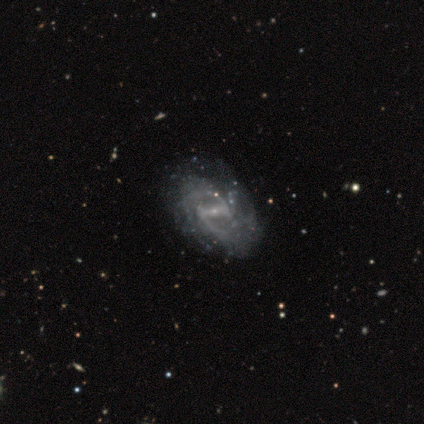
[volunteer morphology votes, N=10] Smooth or featured? 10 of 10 (100%) said featured or disk. Edge-on disk? 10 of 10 (100%) said no. Bar? 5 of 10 (50%) said weak. Spiral arms? 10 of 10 (100%) said yes. Spiral winding? 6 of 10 (60%) said medium. Spiral arm count? 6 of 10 (60%) said 2. Bulge size? 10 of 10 (100%) said small. Merging? 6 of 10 (60%) said none.